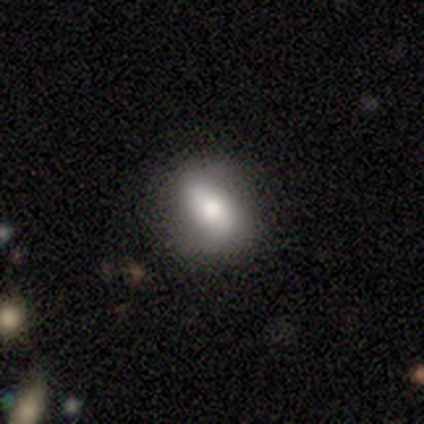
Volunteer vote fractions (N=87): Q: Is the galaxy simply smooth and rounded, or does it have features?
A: smooth — 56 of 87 (64%).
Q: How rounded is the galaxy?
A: in between — 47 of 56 (84%).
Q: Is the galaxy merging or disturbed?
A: none — 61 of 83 (73%).